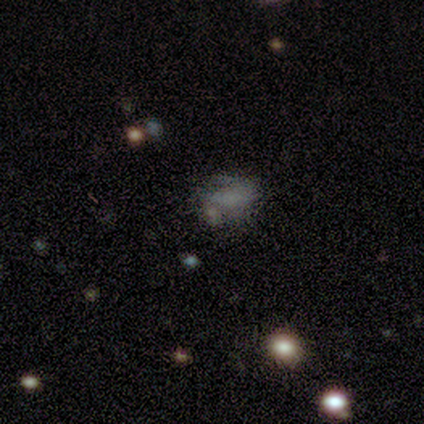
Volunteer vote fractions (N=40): Volunteers were most divided on "merging": none: 45%, minor disturbance: 29%, major disturbance: 26%, merger: 0%. More confident: how rounded — in between (80%); smooth or featured — smooth (50%).